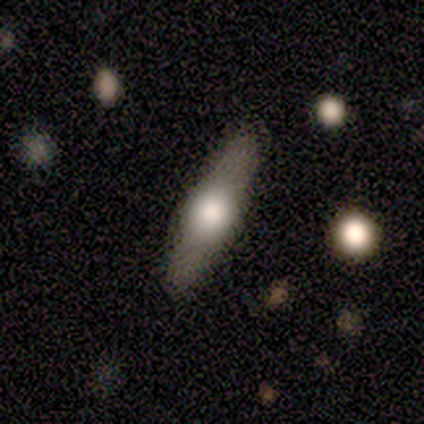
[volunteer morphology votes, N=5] Smooth or featured? smooth (60%)
How rounded? cigar-shaped (67%)
Merging? none (100%)